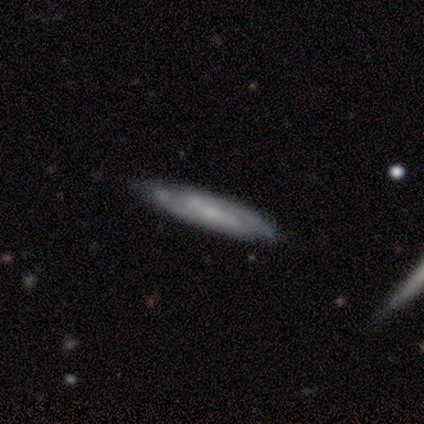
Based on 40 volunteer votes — This appears to be a featured or disk galaxy (62%) with a weak bar (43%), 2 (69%) tight (54%) spiral arms (93%) and a small central bulge (43%). Merging: none (78%).